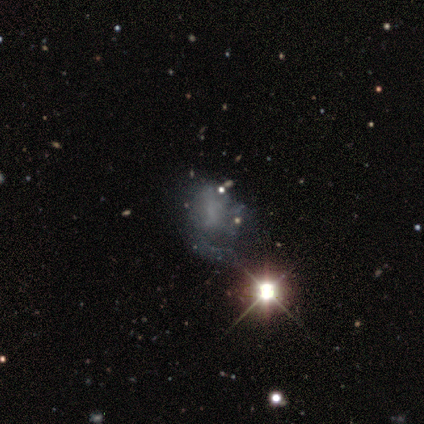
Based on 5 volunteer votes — Overall: star or artifact (80%).